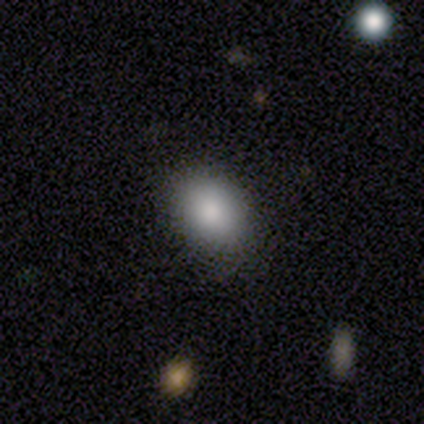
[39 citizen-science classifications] Q: Smooth or featured?
A: smooth (85%); runner-up: featured or disk (8%)
Q: How rounded?
A: in between (76%); runner-up: round (24%)
Q: Merging?
A: none (81%); runner-up: minor disturbance (17%)